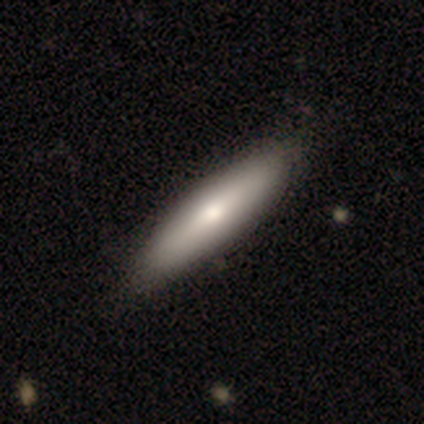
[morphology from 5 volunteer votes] Smooth or featured: smooth — 60% (featured or disk — 40%)
How rounded: cigar-shaped — 67% (in between — 33%)
Merging: none — 100%